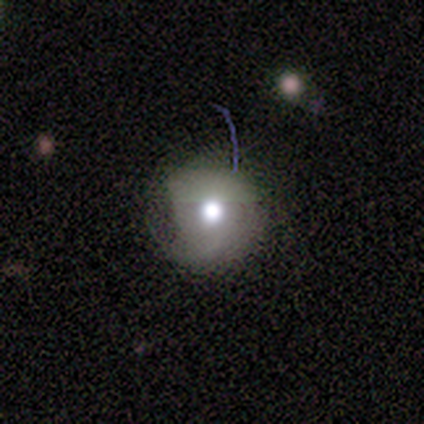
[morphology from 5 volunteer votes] This appears to be a smooth galaxy with no disk features (100%) that is round (100%). Merging: none (80%).